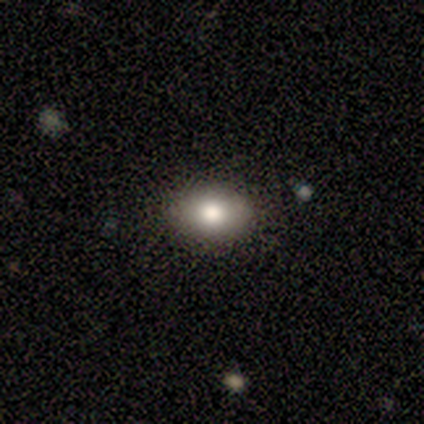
smooth_or_featured: smooth (p=1.00)
how_rounded: in between (p=1.00)
merging: none (p=1.00)